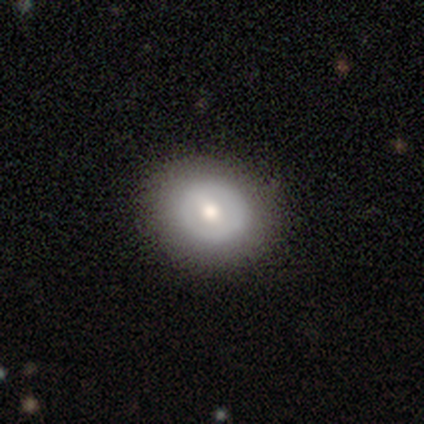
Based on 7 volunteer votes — A smooth galaxy with no disk features (43%, tied with featured or disk) that is in between round and cigar-shaped (67%). Merging: none (83%).